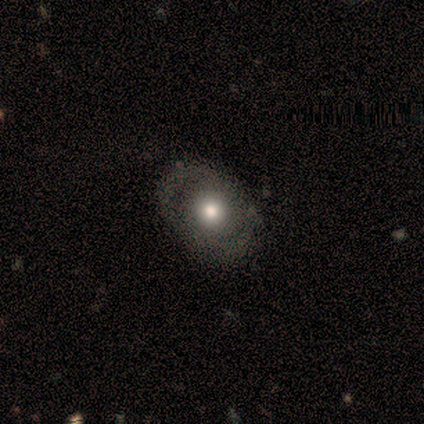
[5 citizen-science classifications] smooth-or-featured: featured or disk: 60% | smooth: 40% | star or artifact: 0%
  disk-edge-on: no: 100% | yes: 0%
    bar: strong: 33% (tied) | weak: 33% (tied) | no: 33% (tied)
    has-spiral-arms: yes: 67% | no: 33%
      spiral-winding: tight: 50% (tied) | loose: 50% (tied) | medium: 0%
      spiral-arm-count: 2: 100% | 1: 0% | 3: 0% | 4: 0% | more than 4: 0% | can't tell: 0%
    bulge-size: moderate: 100% | dominant: 0% | large: 0% | small: 0% | none: 0%
  merging: none: 80% | minor disturbance: 20% | major disturbance: 0% | merger: 0%